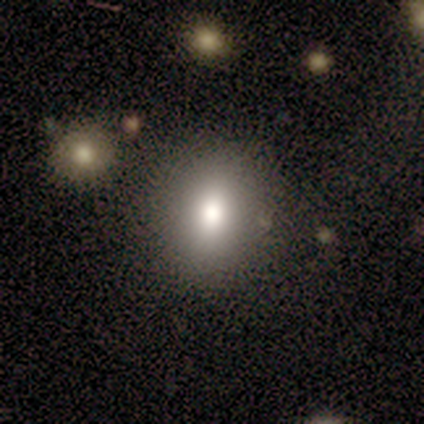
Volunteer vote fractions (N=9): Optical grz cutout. It shows a smooth galaxy with no disk features (89%) that is in between round and cigar-shaped (62%). Merging: none (89%).